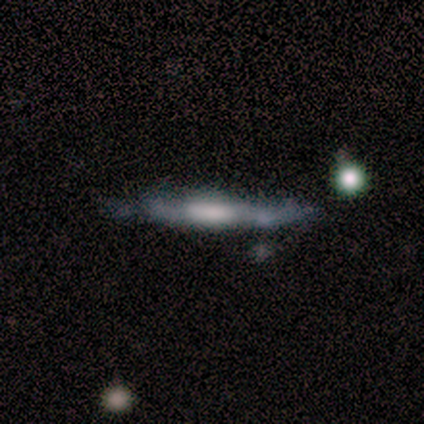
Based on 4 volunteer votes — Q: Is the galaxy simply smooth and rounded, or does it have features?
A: featured or disk — 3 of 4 (75%).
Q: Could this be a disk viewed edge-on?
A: yes — 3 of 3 (100%).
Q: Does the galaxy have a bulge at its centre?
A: boxy — 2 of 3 (67%).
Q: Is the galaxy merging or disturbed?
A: none — 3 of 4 (75%).